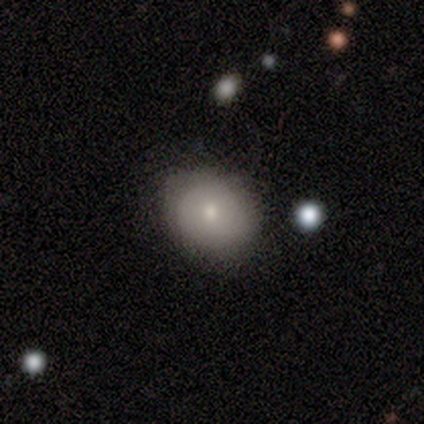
This appears to be a smooth galaxy with no disk features (57%) that is round (50%, tied with in between). Merging: none (83%).